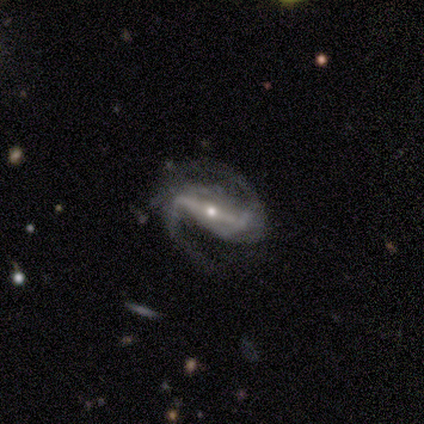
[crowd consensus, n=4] Smooth or featured?
  - featured or disk: 100% *
  - smooth: 0%
  - star or artifact: 0%
Edge-on disk?
  - no: 100% *
  - yes: 0%
Bar?
  - strong: 100% *
  - weak: 0%
  - no: 0%
Spiral arms?
  - yes: 100% *
  - no: 0%
Spiral winding?
  - medium: 100% *
  - tight: 0%
  - loose: 0%
Spiral arm count?
  - 2: 100% *
  - 1: 0%
  - 3: 0%
  - 4: 0%
  - more than 4: 0%
  - can't tell: 0%
Bulge size?
  - moderate: 75% *
  - small: 25%
  - dominant: 0%
  - large: 0%
  - none: 0%
Merging?
  - none: 50% *
  - minor disturbance: 25%
  - major disturbance: 25%
  - merger: 0%